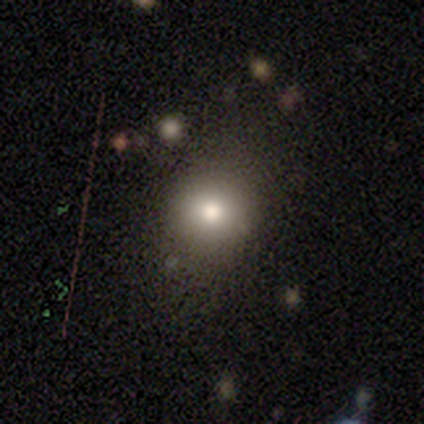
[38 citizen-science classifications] A smooth galaxy with no disk features (79%) that is round (60%).

Vote fractions:
- Smooth or featured? smooth: 79% / star or artifact: 13% / featured or disk: 8%
- How rounded? round: 60% / in between: 33% / cigar-shaped: 7%
- Merging? none: 91% / minor disturbance: 6% / major disturbance: 3% / merger: 0%